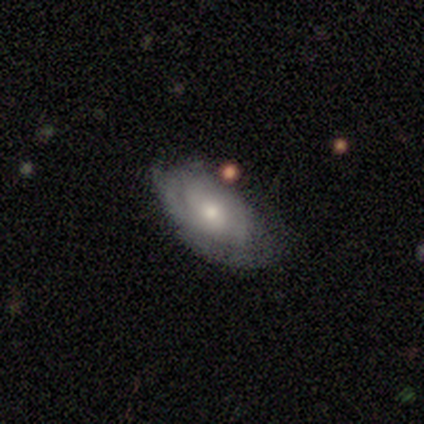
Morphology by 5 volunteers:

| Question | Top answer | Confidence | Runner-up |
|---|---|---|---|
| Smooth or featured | smooth | 60% | featured or disk (40%) |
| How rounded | in between | 100% | — |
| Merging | none | 60% | minor disturbance (40%) |